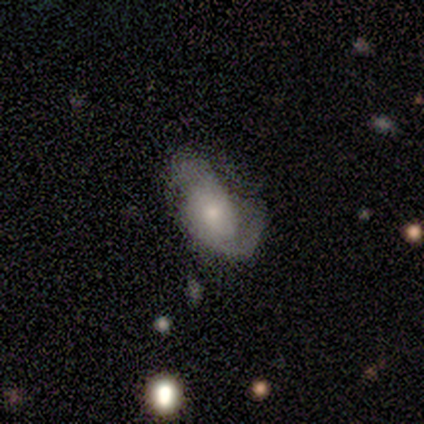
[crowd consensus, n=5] This is likely a smooth galaxy (60%). How rounded: clearly in between (100%). Merging: likely none (60%).